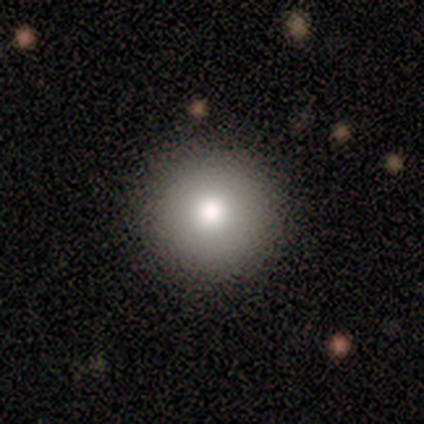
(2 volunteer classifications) Morphology: type=smooth (100%); roundness=round (100%); merging=none (100%).